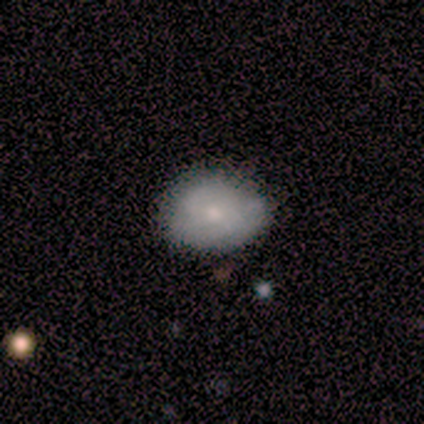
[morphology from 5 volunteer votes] Smooth or featured? 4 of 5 (80%) said smooth. How rounded? 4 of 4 (100%) said in between. Merging? 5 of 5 (100%) said none.